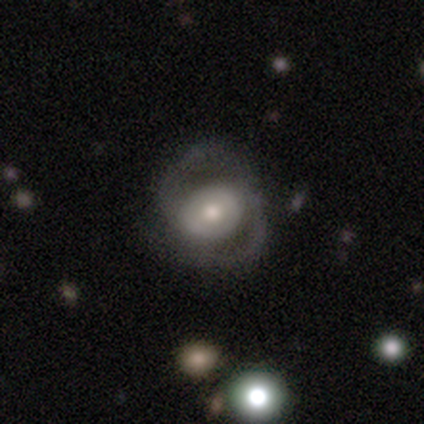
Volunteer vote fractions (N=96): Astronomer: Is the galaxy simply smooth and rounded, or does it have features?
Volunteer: featured or disk — 76%.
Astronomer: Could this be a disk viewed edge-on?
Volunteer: no — 97%.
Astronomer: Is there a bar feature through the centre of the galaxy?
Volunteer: no — 56% (runner-up: weak, 32%).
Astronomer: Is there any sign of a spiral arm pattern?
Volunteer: yes — 80%.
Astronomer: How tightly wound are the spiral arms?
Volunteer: medium — 63%.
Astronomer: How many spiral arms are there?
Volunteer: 2 — 89%.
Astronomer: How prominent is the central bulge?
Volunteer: moderate — 68%.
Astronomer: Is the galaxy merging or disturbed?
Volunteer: none — 60%.